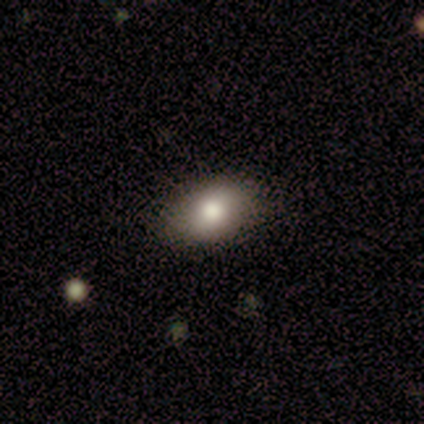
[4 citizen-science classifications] Smooth or featured? 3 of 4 (75%) said smooth. How rounded? 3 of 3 (100%) said in between. Merging? 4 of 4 (100%) said none.